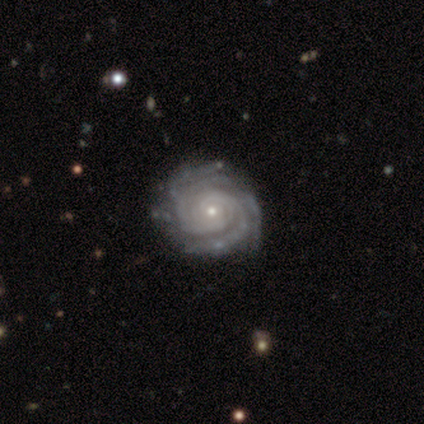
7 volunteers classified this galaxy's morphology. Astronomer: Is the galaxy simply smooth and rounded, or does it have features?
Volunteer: featured or disk — 100%.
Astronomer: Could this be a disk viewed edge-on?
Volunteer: no — 100%.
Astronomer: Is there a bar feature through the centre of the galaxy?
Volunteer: no — 100%.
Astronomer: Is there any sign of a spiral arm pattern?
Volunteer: yes — 100%.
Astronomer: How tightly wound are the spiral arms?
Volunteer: tight — 71%.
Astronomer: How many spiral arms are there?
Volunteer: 3 — 57%.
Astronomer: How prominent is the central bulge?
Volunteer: small — 86%.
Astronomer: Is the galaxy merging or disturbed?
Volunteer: none — 71%.